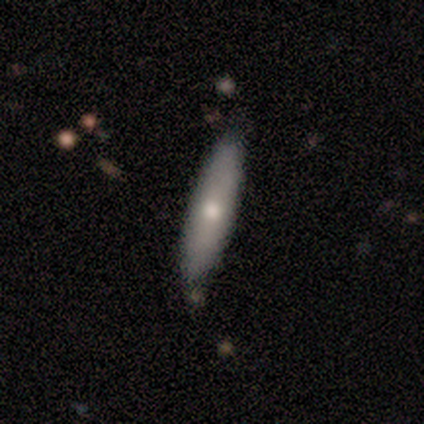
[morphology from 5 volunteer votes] smooth_or_featured: featured or disk (p=0.60) [alt: smooth p=0.40]
disk_edge_on: yes (p=0.67) [alt: no p=0.33]
edge_on_bulge: rounded (p=1.00)
merging: none (p=0.80) [alt: minor disturbance p=0.20]